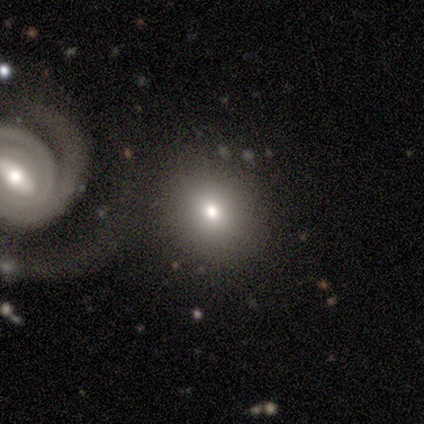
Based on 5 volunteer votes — smooth_or_featured: smooth (p=0.60) [alt: featured or disk p=0.20]
how_rounded: round (p=1.00)
merging: none (p=0.75) [alt: merger p=0.25]